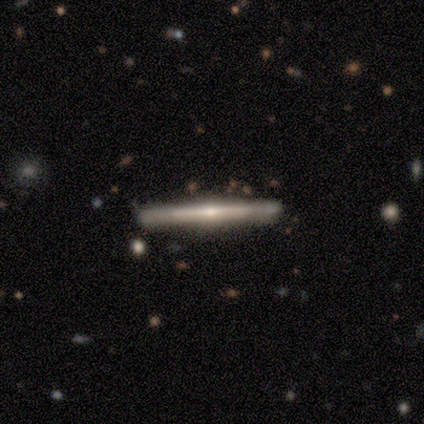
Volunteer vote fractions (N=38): Smooth or featured? featured or disk (71%)
Edge-on disk? yes (100%)
Edge-on bulge? rounded (70%)
Merging? none (97%)